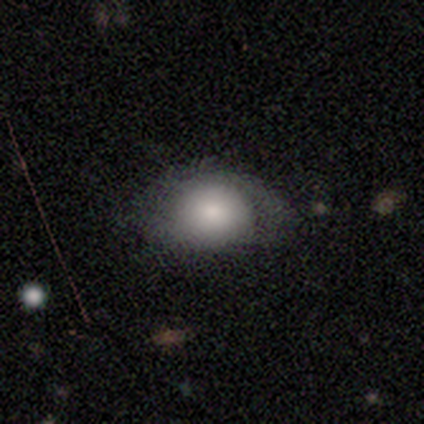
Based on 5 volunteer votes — smooth_or_featured: smooth (p=0.60) [alt: featured or disk p=0.20]
how_rounded: in between (p=0.67) [alt: round p=0.33]
merging: none (p=0.50) [tied with: minor disturbance p=0.50]